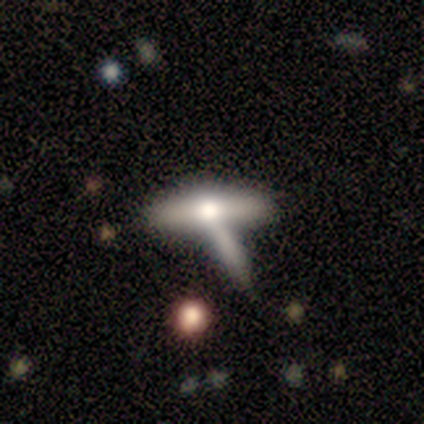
Volunteers were most divided on "merging": none: 60%, major disturbance: 20%, merger: 20%, minor disturbance: 0%. More confident: smooth or featured — smooth (80%); how rounded — cigar-shaped (75%).